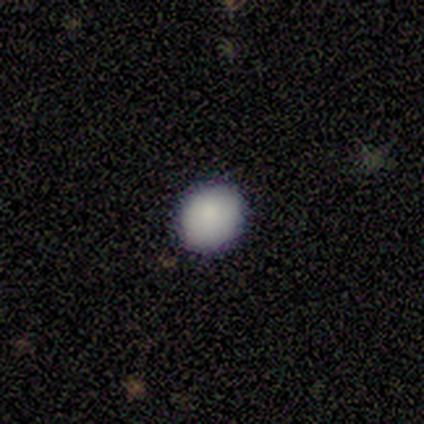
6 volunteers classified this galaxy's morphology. Q: Smooth or featured?
A: smooth (83%); runner-up: star or artifact (17%)
Q: How rounded?
A: round (60%); runner-up: in between (40%)
Q: Merging?
A: none (100%)